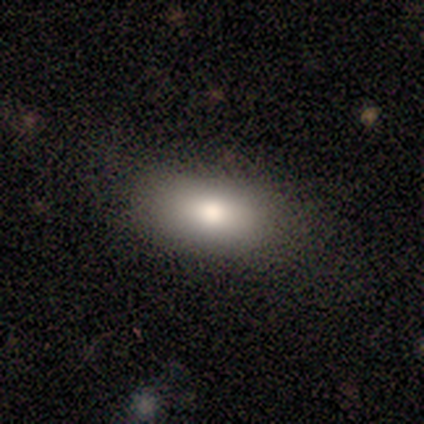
This appears to be a smooth galaxy with no disk features (100%) that is in between round and cigar-shaped (100%). Merging: none (40%, tied with minor disturbance).